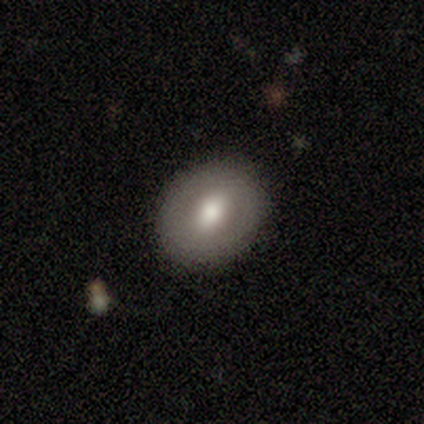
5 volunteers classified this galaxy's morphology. A smooth galaxy with no disk features (60%) that is round (67%).

Vote fractions:
- Smooth or featured? smooth: 60% / featured or disk: 40% / star or artifact: 0%
- How rounded? round: 67% / in between: 33% / cigar-shaped: 0%
- Merging? none: 100% / minor disturbance: 0% / major disturbance: 0% / merger: 0%